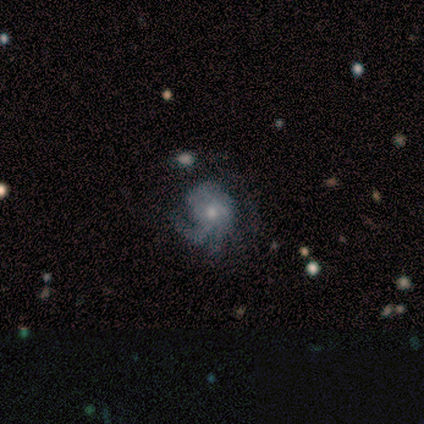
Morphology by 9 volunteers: This appears to be a featured or disk galaxy (78%) with no bar (71%), 3 (67%) tight (33%, tied with medium and loose) spiral arms (86%) and a small central bulge (71%). Merging: none (38%, tied with minor disturbance).